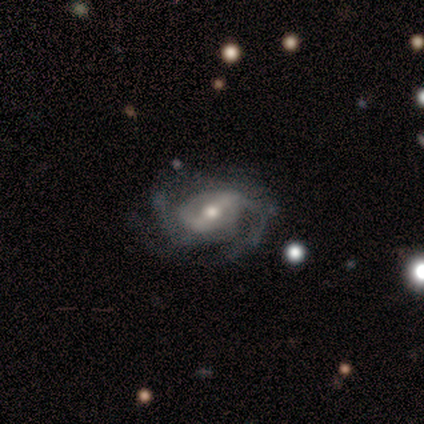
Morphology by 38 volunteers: Volunteers were most divided on "bar": strong: 42%, weak: 39%, no: 18%. More confident: edge-on disk — no (100%); spiral arms — yes (94%); smooth or featured — featured or disk (87%); bulge size — moderate (70%); spiral winding — medium (58%); spiral arm count — 2 (58%); merging — none (56%).